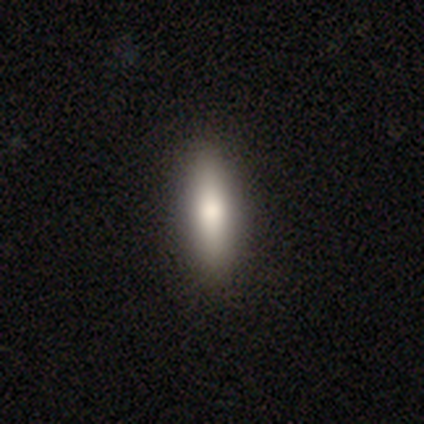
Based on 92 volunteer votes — smooth-or-featured: smooth: 79% | featured or disk: 15% | star or artifact: 5%
  how-rounded: cigar-shaped: 67% | in between: 33% | round: 0%
  merging: none: 97% | minor disturbance: 2% | merger: 1% | major disturbance: 0%